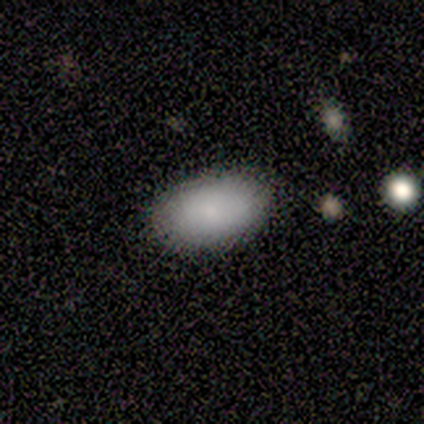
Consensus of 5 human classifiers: Smooth or featured? smooth (60%)
How rounded? in between (100%)
Merging? none (100%)